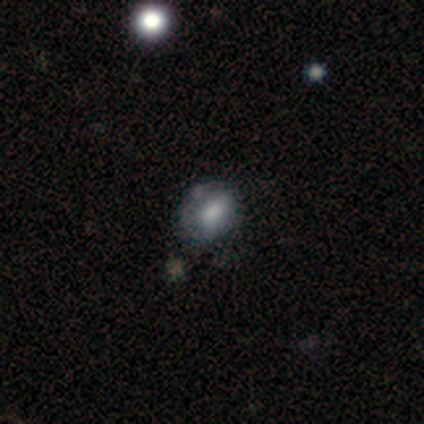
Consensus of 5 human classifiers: smooth-or-featured: smooth: 80% | featured or disk: 20% | star or artifact: 0%
  how-rounded: in between: 75% | round: 25% | cigar-shaped: 0%
  merging: none: 60% | major disturbance: 40% | minor disturbance: 0% | merger: 0%